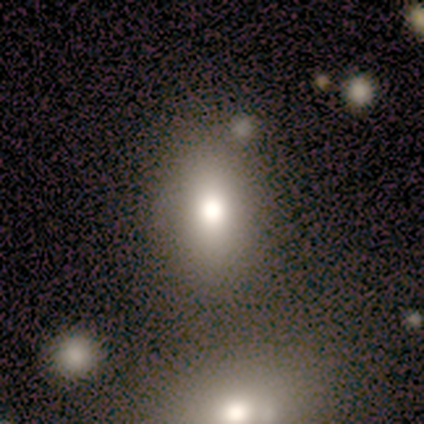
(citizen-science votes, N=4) This is clearly a smooth galaxy (100%). How rounded: likely round (75%). Merging: likely none (75%).